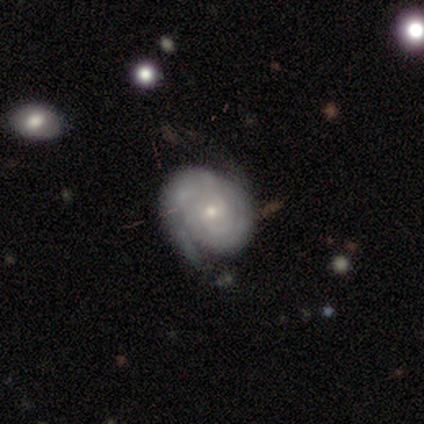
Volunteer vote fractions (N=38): Smooth or featured? 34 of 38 (89%) said featured or disk. Edge-on disk? 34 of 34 (100%) said no. Bar? 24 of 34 (71%) said no. Spiral arms? 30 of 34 (88%) said yes. Spiral winding? 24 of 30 (80%) said tight. Spiral arm count? 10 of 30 (33%, tied with can't tell) said 2. Bulge size? 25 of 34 (74%) said small. Merging? 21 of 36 (58%) said none.